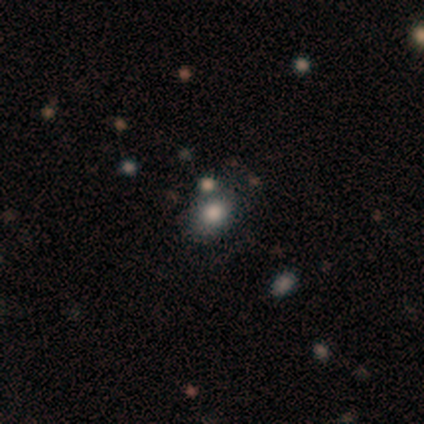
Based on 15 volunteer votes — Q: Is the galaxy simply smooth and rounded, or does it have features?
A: smooth — 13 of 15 (87%).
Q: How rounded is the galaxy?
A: in between — 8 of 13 (62%).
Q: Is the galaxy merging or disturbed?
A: none — 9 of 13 (69%).